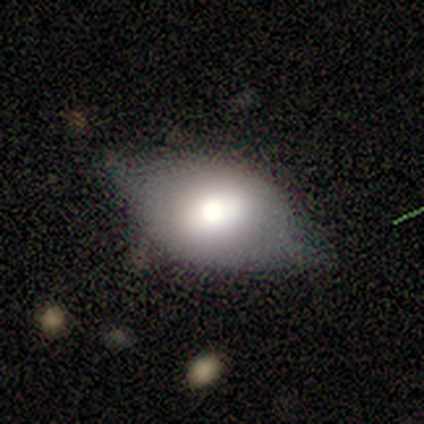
smooth-or-featured: smooth: 60% | featured or disk: 40% | star or artifact: 0%
  how-rounded: in between: 100% | round: 0% | cigar-shaped: 0%
  merging: minor disturbance: 60% | none: 20% | major disturbance: 20% | merger: 0%